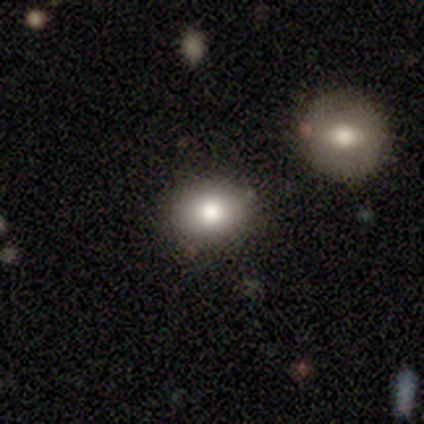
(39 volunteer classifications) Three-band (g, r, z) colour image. It shows a smooth galaxy with no disk features (74%) that is in between round and cigar-shaped (66%). Merging: none (82%).